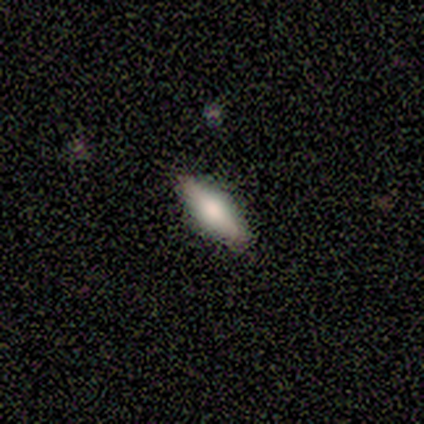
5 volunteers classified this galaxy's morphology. Q: Smooth or featured?
A: smooth (60%); runner-up: featured or disk (20%)
Q: How rounded?
A: cigar-shaped (67%); runner-up: in between (33%)
Q: Merging?
A: none (100%)